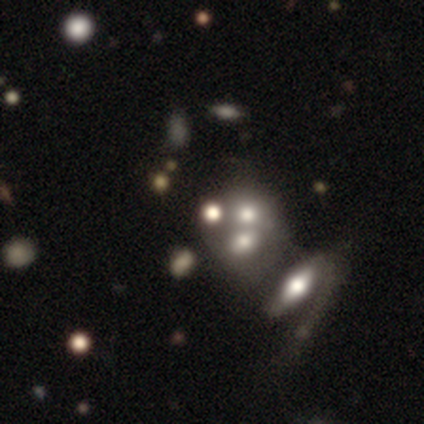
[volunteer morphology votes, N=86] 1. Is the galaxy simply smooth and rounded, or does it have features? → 35% star or artifact, 34% smooth, 31% featured or disk.